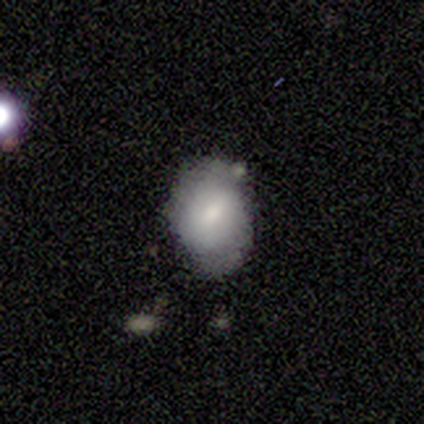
This appears to be a smooth galaxy with no disk features (100%) that is in between round and cigar-shaped (80%). Merging: none (60%).